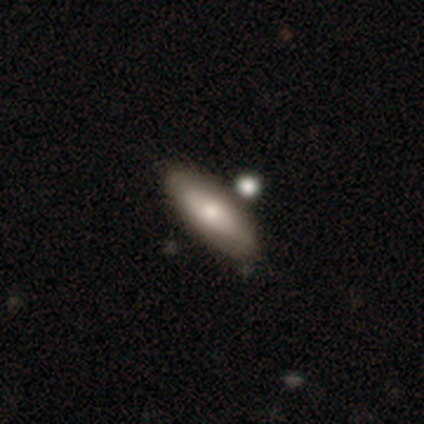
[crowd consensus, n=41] Q: Smooth or featured?
A: smooth (73%); runner-up: featured or disk (24%)
Q: How rounded?
A: in between (67%); runner-up: cigar-shaped (27%)
Q: Merging?
A: none (55%); runner-up: minor disturbance (22%)